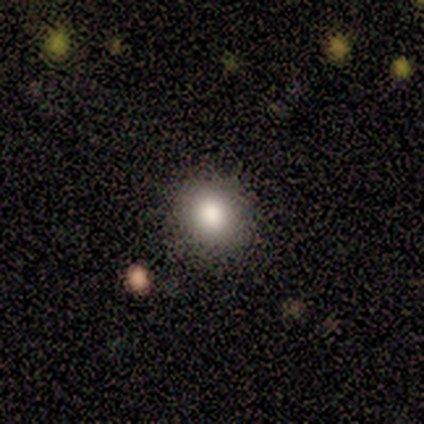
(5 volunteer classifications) A smooth galaxy with no disk features (60%) that is round (100%). Merging: none (100%).